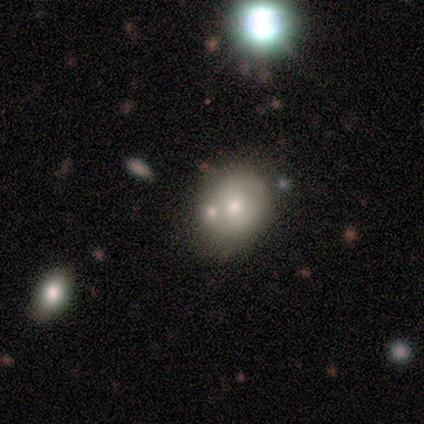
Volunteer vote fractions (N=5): This is clearly a featured or disk galaxy (80%). It is clearly not viewed edge-on (100%). Bar: clearly no (100%). Spiral arm pattern: clearly no (100%). Central bulge: likely moderate (75%). Merging: clearly merger (80%).